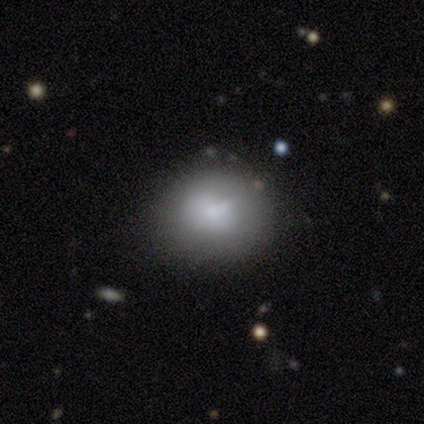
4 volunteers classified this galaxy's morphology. smooth 100%, featured or disk 0%, star or artifact 0%. Down the decision tree: how rounded — round (50%, tied with in between); merging — none (50%).